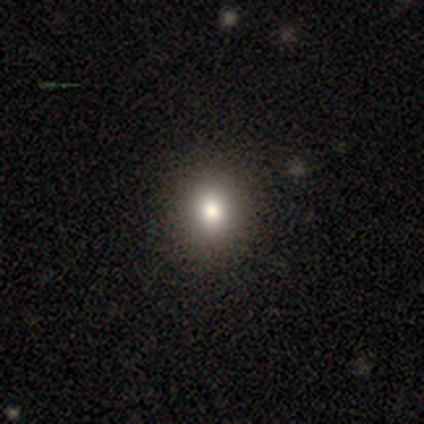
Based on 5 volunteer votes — This appears to be a smooth galaxy with no disk features (80%) that is round (100%). Merging: none (75%).